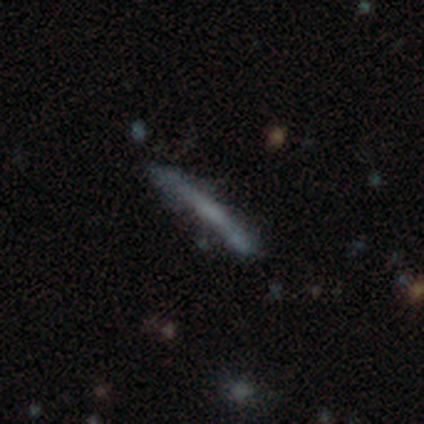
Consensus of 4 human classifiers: Smooth or featured? 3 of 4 (75%) said smooth. How rounded? 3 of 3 (100%) said cigar-shaped. Merging? 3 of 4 (75%) said none.